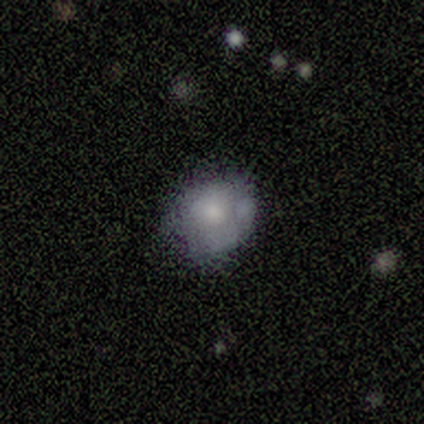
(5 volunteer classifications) Volunteers were most divided on "bulge size" (3-way tie): large: 33%, moderate: 33%, small: 33%, dominant: 0%, none: 0%. More confident: edge-on disk — no (100%); bar — no (100%); spiral arms — no (67%); smooth or featured — featured or disk (60%); merging — minor disturbance (60%).